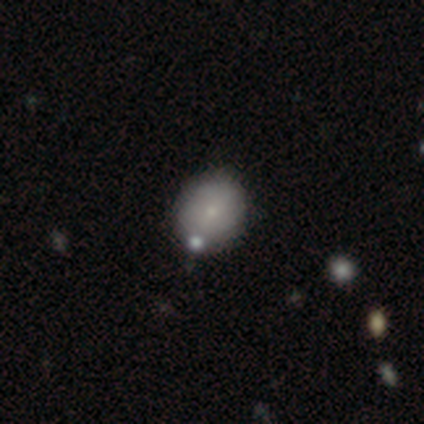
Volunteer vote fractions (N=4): This is likely a smooth galaxy (75%). How rounded: likely in between (67%). Merging: clearly none (100%).